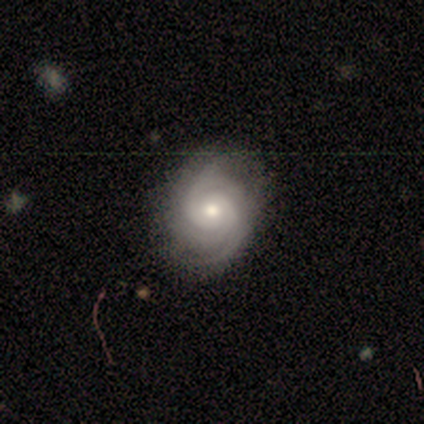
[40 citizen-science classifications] Smooth or featured?
  - featured or disk: 82% *
  - star or artifact: 12%
  - smooth: 5%
Edge-on disk?
  - no: 100% *
  - yes: 0%
Bar?
  - no: 88% *
  - weak: 9%
  - strong: 3%
Spiral arms?
  - yes: 97% *
  - no: 3%
Spiral winding?
  - tight: 66% *
  - medium: 34%
  - loose: 0%
Spiral arm count?
  - 2: 38% *
  - 3: 31%
  - 4: 16%
  - can't tell: 16%
  - 1: 0%
  - more than 4: 0%
Bulge size?
  - moderate: 64% *
  - small: 33%
  - large: 3%
  - dominant: 0%
  - none: 0%
Merging?
  - none: 80% *
  - minor disturbance: 14%
  - major disturbance: 6%
  - merger: 0%